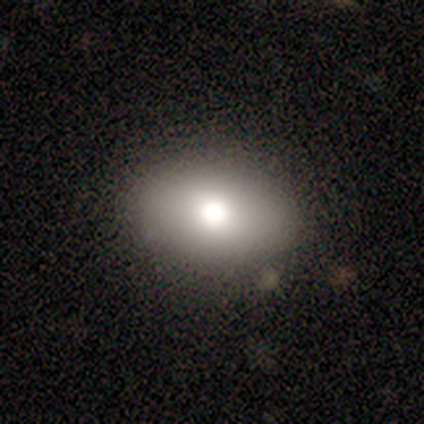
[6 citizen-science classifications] smooth 67%, star or artifact 33%, featured or disk 0%. Down the decision tree: how rounded — in between (100%); merging — none (75%).